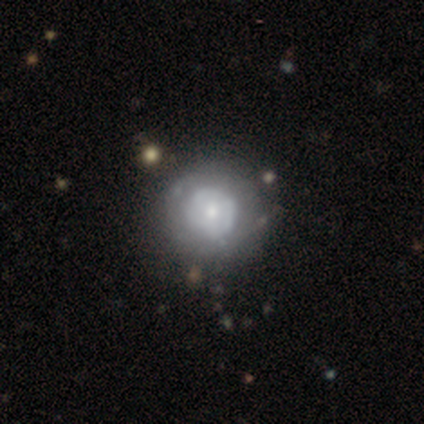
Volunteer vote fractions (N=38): Overall: featured or disk (55%; smooth 39%). Edge-on disk: no (100%). Bar: no (76%). Spiral arms: no (57%; yes 43%). Bulge size: small (43%; moderate 29%). Merging: none (56%).